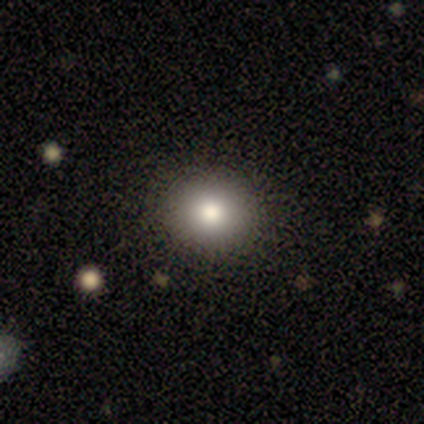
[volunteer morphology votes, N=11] A smooth galaxy with no disk features (91%) that is round (80%).

Vote fractions:
- Smooth or featured? smooth: 91% / star or artifact: 9% / featured or disk: 0%
- How rounded? round: 80% / in between: 20% / cigar-shaped: 0%
- Merging? none: 90% / minor disturbance: 10% / major disturbance: 0% / merger: 0%